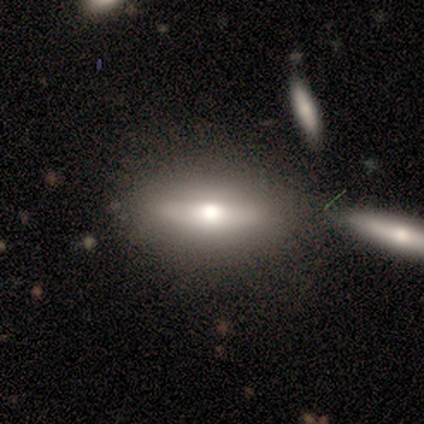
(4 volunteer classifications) Smooth or featured?
  - featured or disk: 50% *
  - smooth: 25%
  - star or artifact: 25%
Edge-on disk?
  - yes: 100% *
  - no: 0%
Edge-on bulge?
  - rounded: 100% *
  - boxy: 0%
  - none: 0%
Merging?
  - none: 67% *
  - minor disturbance: 33%
  - major disturbance: 0%
  - merger: 0%